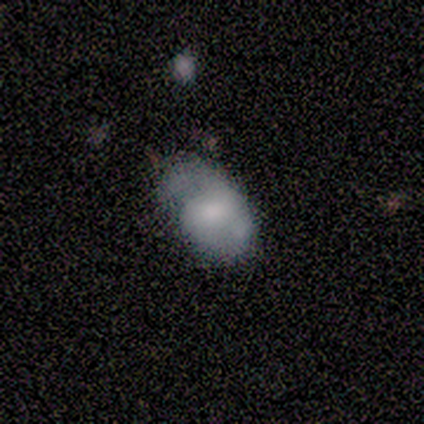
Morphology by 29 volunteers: Volunteers were most divided on "smooth or featured": smooth: 48%, featured or disk: 45%, star or artifact: 7%. Remaining: how rounded — in between (71%); merging — minor disturbance (37%).